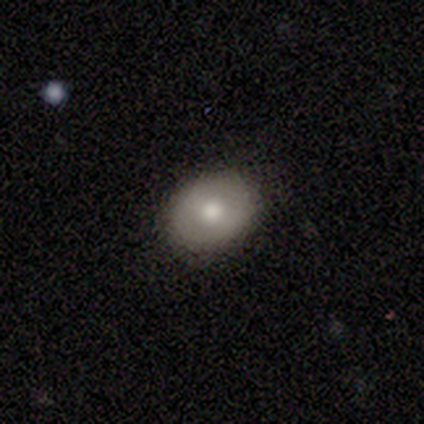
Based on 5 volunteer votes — Volunteers were most divided on "smooth or featured": smooth: 80%, featured or disk: 20%, star or artifact: 0%. More confident: how rounded — in between (100%); merging — none (80%).